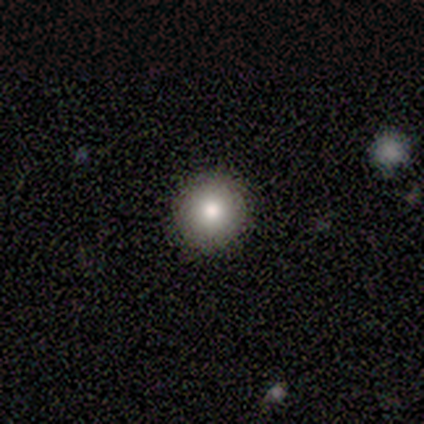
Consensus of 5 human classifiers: Smooth or featured?
  - smooth: 100% *
  - featured or disk: 0%
  - star or artifact: 0%
How rounded?
  - round: 100% *
  - in between: 0%
  - cigar-shaped: 0%
Merging?
  - none: 100% *
  - minor disturbance: 0%
  - major disturbance: 0%
  - merger: 0%